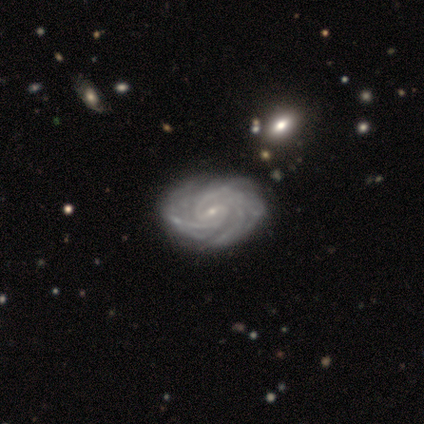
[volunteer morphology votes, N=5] smooth-or-featured: featured or disk: 100% | smooth: 0% | star or artifact: 0%
  disk-edge-on: no: 100% | yes: 0%
    bar: strong: 60% | no: 40% | weak: 0%
    has-spiral-arms: yes: 100% | no: 0%
      spiral-winding: tight: 60% | medium: 40% | loose: 0%
      spiral-arm-count: 2: 40% (tied) | 3: 40% (tied) | more than 4: 20% | 1: 0% | 4: 0% | can't tell: 0%
    bulge-size: small: 80% | moderate: 20% | dominant: 0% | large: 0% | none: 0%
  merging: none: 60% | minor disturbance: 20% | major disturbance: 20% | merger: 0%